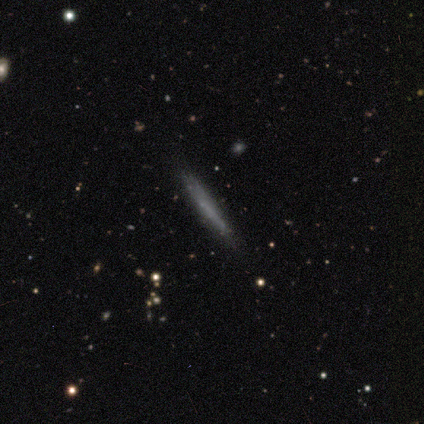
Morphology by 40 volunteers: Q: Smooth or featured?
A: smooth (62%); runner-up: featured or disk (30%)
Q: How rounded?
A: cigar-shaped (100%)
Q: Merging?
A: none (78%); runner-up: minor disturbance (22%)